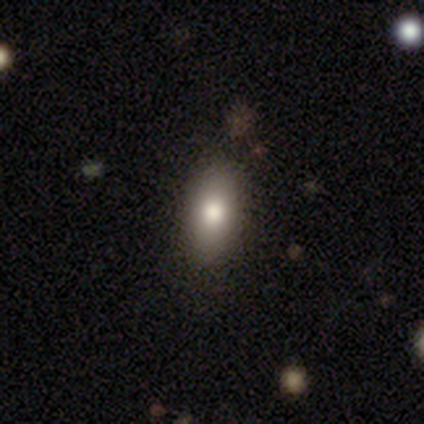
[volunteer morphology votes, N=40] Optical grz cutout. It shows a smooth galaxy with no disk features (85%) that is in between round and cigar-shaped (79%). Merging: none (83%).